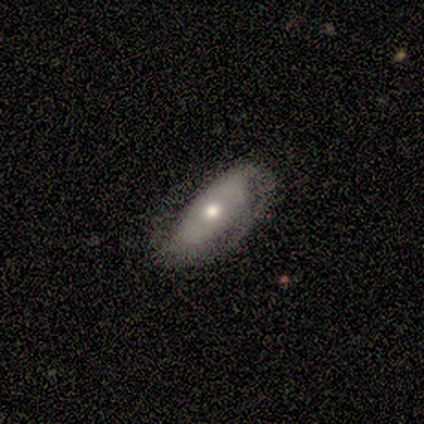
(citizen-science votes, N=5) A featured or disk galaxy (60%) with no bar (67%), 2 (67%) medium (100%) spiral arms (100%) and a moderate central bulge (67%). Merging: none (60%).